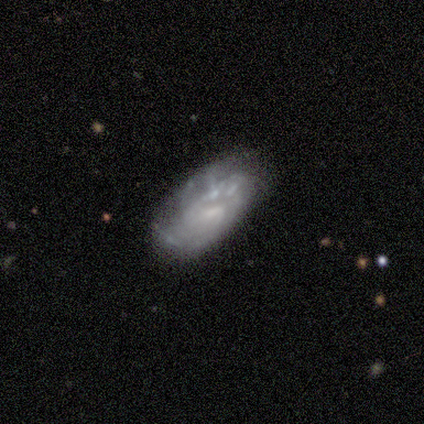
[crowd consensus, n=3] Smooth or featured?
  - featured or disk: 100% *
  - smooth: 0%
  - star or artifact: 0%
Edge-on disk?
  - no: 100% *
  - yes: 0%
Bar?
  - no: 67% *
  - strong: 33%
  - weak: 0%
Spiral arms?
  - yes: 67% *
  - no: 33%
Spiral winding?
  - medium: 50% * (tied)
  - loose: 50% * (tied)
  - tight: 0%
Spiral arm count?
  - 2: 100% *
  - 1: 0%
  - 3: 0%
  - 4: 0%
  - more than 4: 0%
  - can't tell: 0%
Bulge size?
  - none: 67% *
  - small: 33%
  - dominant: 0%
  - large: 0%
  - moderate: 0%
Merging?
  - none: 67% *
  - minor disturbance: 33%
  - major disturbance: 0%
  - merger: 0%